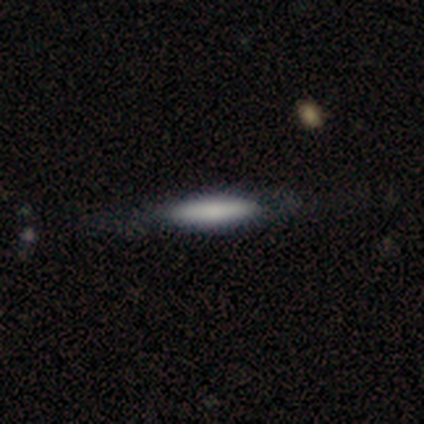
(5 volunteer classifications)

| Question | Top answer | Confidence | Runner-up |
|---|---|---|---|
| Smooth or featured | smooth | 80% | featured or disk (20%) |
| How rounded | in between | 50% | tied: cigar-shaped (50%) |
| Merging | none | 60% | minor disturbance (20%) |